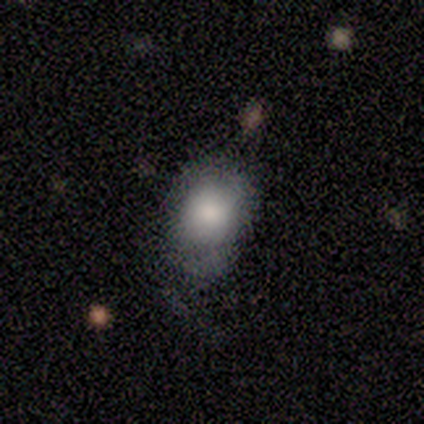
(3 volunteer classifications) smooth-or-featured: smooth: 100% | featured or disk: 0% | star or artifact: 0%
  how-rounded: in between: 67% | round: 33% | cigar-shaped: 0%
  merging: minor disturbance: 67% | none: 33% | major disturbance: 0% | merger: 0%